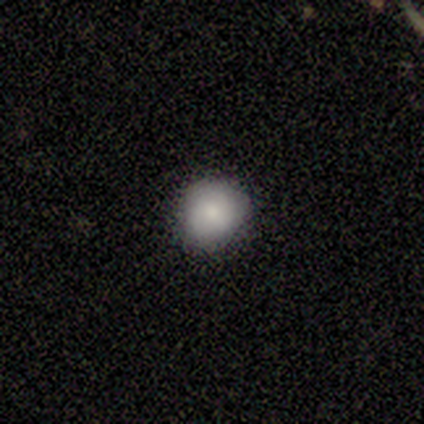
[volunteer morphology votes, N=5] smooth-or-featured: smooth: 80% | featured or disk: 20% | star or artifact: 0%
  how-rounded: round: 100% | in between: 0% | cigar-shaped: 0%
  merging: none: 100% | minor disturbance: 0% | major disturbance: 0% | merger: 0%